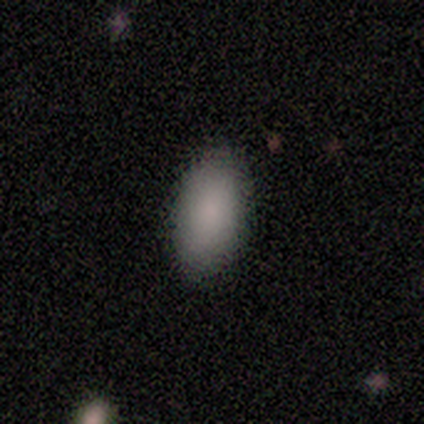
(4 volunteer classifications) A smooth galaxy with no disk features (75%) that is in between round and cigar-shaped (100%). Merging: none (100%).